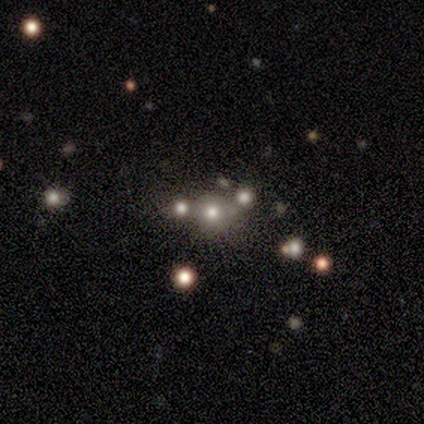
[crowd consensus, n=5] Volunteers were most divided on "smooth or featured" (2-way tie): featured or disk: 40%, star or artifact: 40%, smooth: 20%; "bulge size" (2-way tie): large: 50%, moderate: 50%, dominant: 0%, small: 0%, none: 0%. More confident: edge-on disk — no (100%); bar — no (100%); spiral arms — no (100%); merging — none (67%).